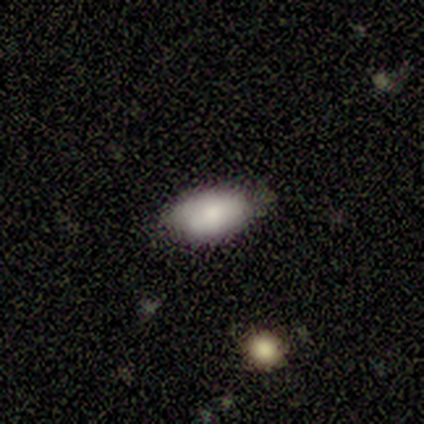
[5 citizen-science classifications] smooth 80%, featured or disk 20%, star or artifact 0%. Down the decision tree: how rounded — in between (100%); merging — none (60%).